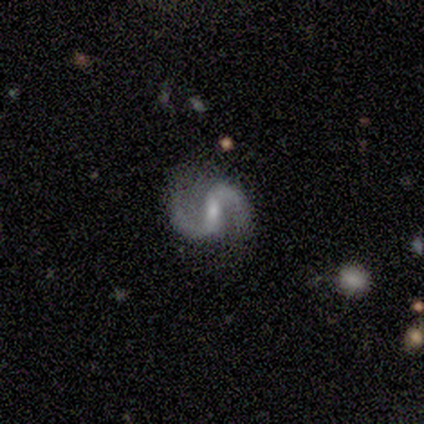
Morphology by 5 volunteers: type=featured or disk (100%); edge-on=no (100%); bar=weak (80%); spiral arms=yes (100%); winding=medium (60%); arm count=2 (80%); bulge=moderate (60%); merging=none (60%).